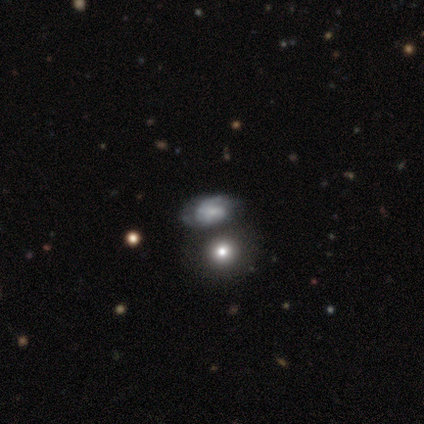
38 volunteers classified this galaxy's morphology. smooth-or-featured: featured or disk: 50% | smooth: 47% | star or artifact: 3%
  disk-edge-on: no: 95% | yes: 5%
    bar: no: 72% | weak: 22% | strong: 6%
    has-spiral-arms: yes: 78% | no: 22%
      spiral-winding: medium: 50% | tight: 29% | loose: 21%
      spiral-arm-count: 2: 64% | can't tell: 29% | 1: 7% | 3: 0% | 4: 0% | more than 4: 0%
    bulge-size: small: 61% | none: 22% | moderate: 17% | dominant: 0% | large: 0%
  merging: none: 49% | merger: 35% | minor disturbance: 14% | major disturbance: 3%